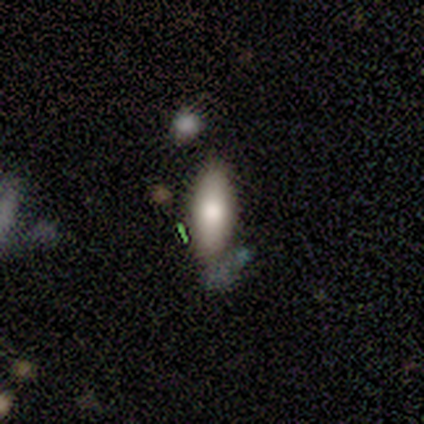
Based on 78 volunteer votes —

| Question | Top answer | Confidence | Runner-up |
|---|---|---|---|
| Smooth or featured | smooth | 78% | featured or disk (13%) |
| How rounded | in between | 84% | cigar-shaped (16%) |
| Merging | none | 38% | merger (18%) |